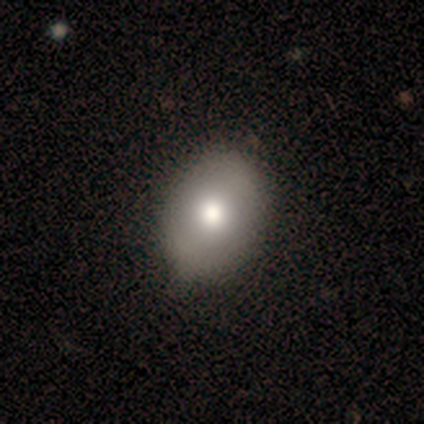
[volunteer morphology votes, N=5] This appears to be a smooth galaxy with no disk features (60%) that is in between round and cigar-shaped (100%). Merging: minor disturbance (75%).